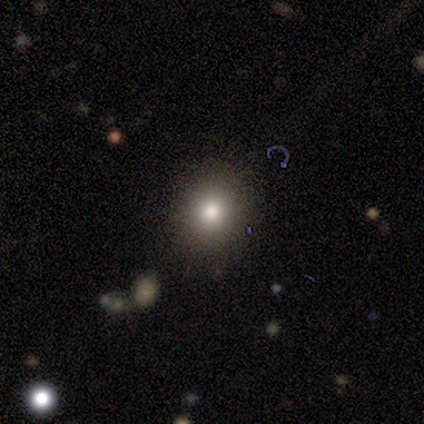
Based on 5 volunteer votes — smooth-or-featured: smooth: 80% | star or artifact: 20% | featured or disk: 0%
  how-rounded: round: 50% (tied) | in between: 50% (tied) | cigar-shaped: 0%
  merging: none: 100% | minor disturbance: 0% | major disturbance: 0% | merger: 0%